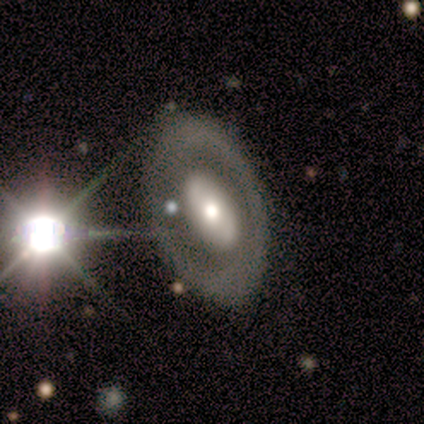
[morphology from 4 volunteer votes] A smooth galaxy with no disk features (50%, tied with featured or disk) that is in between round and cigar-shaped (100%).

Vote fractions:
- Smooth or featured? smooth: 50% (tied) / featured or disk: 50% (tied) / star or artifact: 0%
- How rounded? in between: 100% / round: 0% / cigar-shaped: 0%
- Merging? none: 50% / major disturbance: 25% / merger: 25% / minor disturbance: 0%